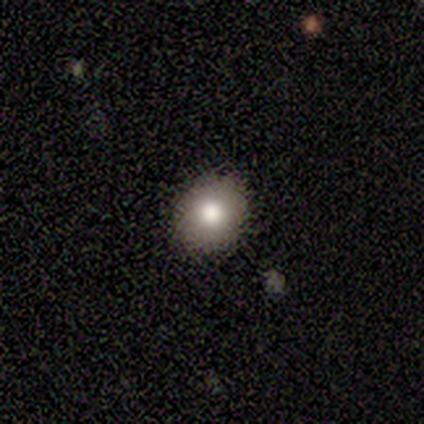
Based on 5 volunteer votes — Smooth or featured? smooth (100%)
How rounded? in between (80%)
Merging? none (60%)